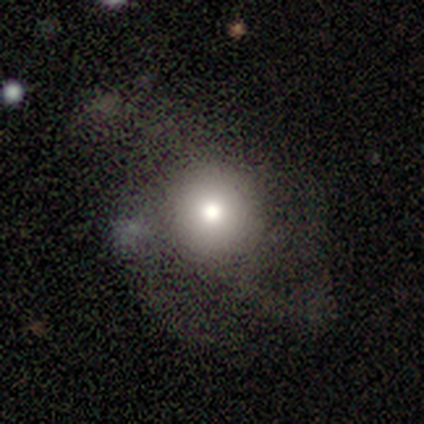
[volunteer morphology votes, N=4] A smooth galaxy with no disk features (50%, tied with featured or disk) that is round (50%, tied with in between).

Vote fractions:
- Smooth or featured? smooth: 50% (tied) / featured or disk: 50% (tied) / star or artifact: 0%
- How rounded? round: 50% (tied) / in between: 50% (tied) / cigar-shaped: 0%
- Merging? merger: 50% / none: 25% / major disturbance: 25% / minor disturbance: 0%